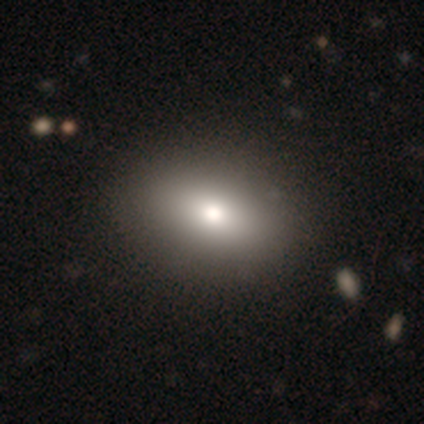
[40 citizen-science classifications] Smooth or featured?
  - smooth: 70% *
  - featured or disk: 25%
  - star or artifact: 5%
How rounded?
  - in between: 89% *
  - round: 11%
  - cigar-shaped: 0%
Merging?
  - none: 55% *
  - minor disturbance: 11%
  - merger: 3%
  - major disturbance: 0%